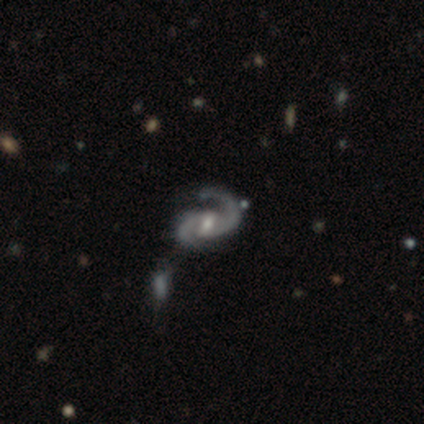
Smooth or featured? 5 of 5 (100%) said featured or disk. Edge-on disk? 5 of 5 (100%) said no. Bar? 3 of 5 (60%) said no. Spiral arms? 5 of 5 (100%) said yes. Spiral winding? 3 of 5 (60%) said loose. Spiral arm count? 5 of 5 (100%) said 2. Bulge size? 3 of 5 (60%) said moderate. Merging? 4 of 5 (80%) said none.